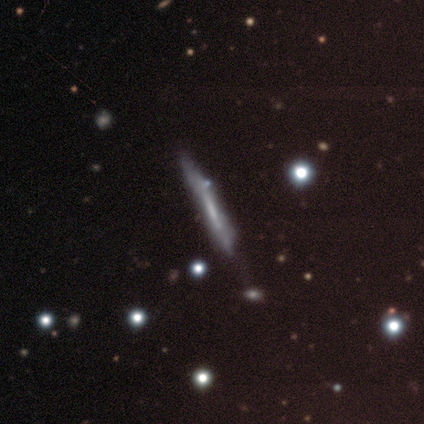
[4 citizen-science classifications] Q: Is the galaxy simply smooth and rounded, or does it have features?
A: featured or disk — 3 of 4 (75%).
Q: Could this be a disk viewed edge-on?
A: yes — 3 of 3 (100%).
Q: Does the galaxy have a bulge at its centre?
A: none — 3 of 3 (100%).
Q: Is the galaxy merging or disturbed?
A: none — 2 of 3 (67%).